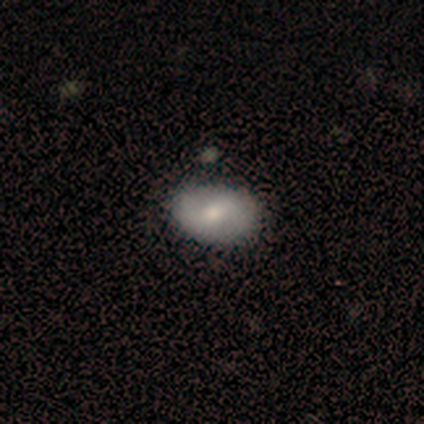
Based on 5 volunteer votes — Q: Smooth or featured?
A: smooth (100%)
Q: How rounded?
A: in between (100%)
Q: Merging?
A: none (100%)